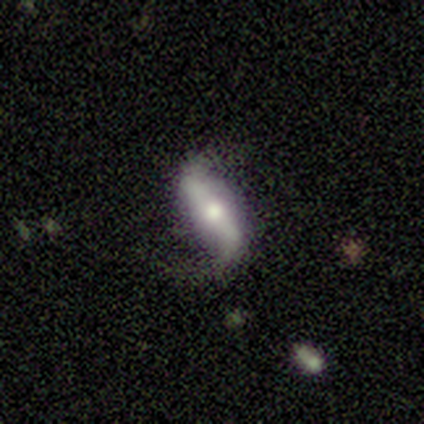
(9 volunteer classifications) This appears to be a featured or disk galaxy (78%) with a strong bar (60%), 2 (100%) loose (100%) spiral arms (100%) and a moderate central bulge (80%). Merging: none (75%).